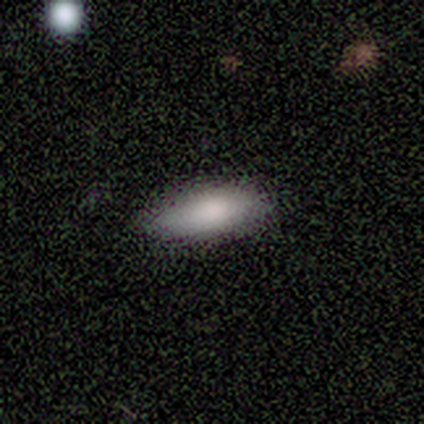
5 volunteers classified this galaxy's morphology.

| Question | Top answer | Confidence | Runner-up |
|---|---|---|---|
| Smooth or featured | smooth | 100% | — |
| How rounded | in between | 80% | cigar-shaped (20%) |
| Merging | none | 100% | — |